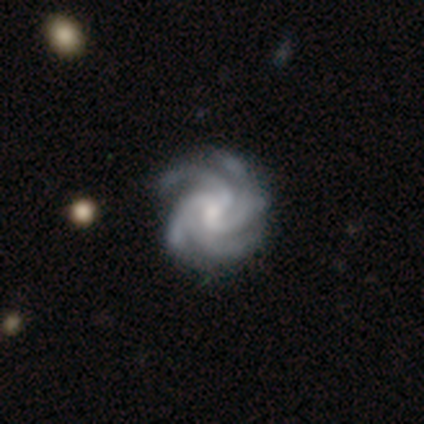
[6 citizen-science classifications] Smooth or featured: featured or disk — 100%
Edge-on disk: no — 100%
Bar: no — 83% (weak — 17%)
Spiral arms: yes — 100%
Spiral winding: tight — 67% (medium — 33%)
Spiral arm count: 4 — 83% (3 — 17%)
Bulge size: moderate — 67% (small — 33%)
Merging: none — 100%